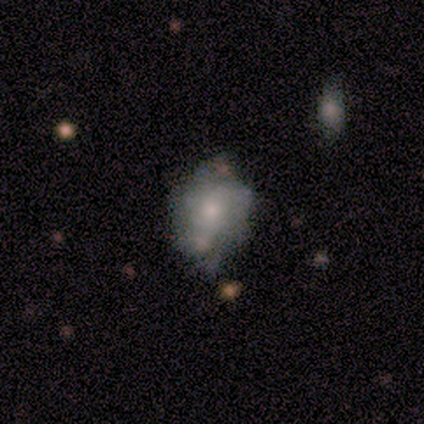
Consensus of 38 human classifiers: Smooth or featured? featured or disk (47%)
Edge-on disk? no (100%)
Bar? no (83%)
Spiral arms? no (67%)
Bulge size? small (67%)
Merging? none (44%)